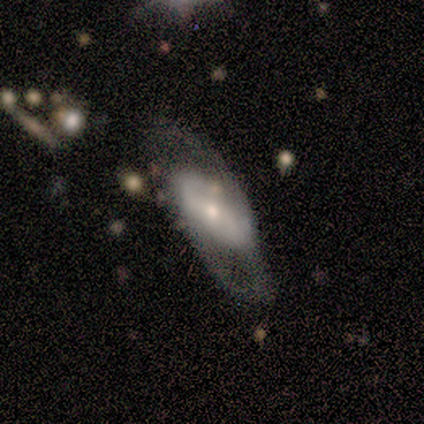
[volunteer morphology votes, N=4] Smooth or featured? 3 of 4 (75%) said smooth. How rounded? 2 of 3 (67%) said in between. Merging? 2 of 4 (50%) said minor disturbance.